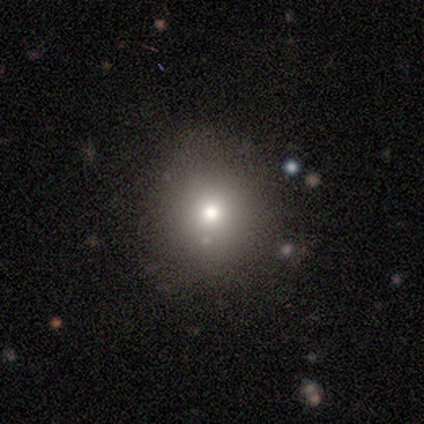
A smooth galaxy with no disk features (60%) that is round (100%). Merging: none (67%).